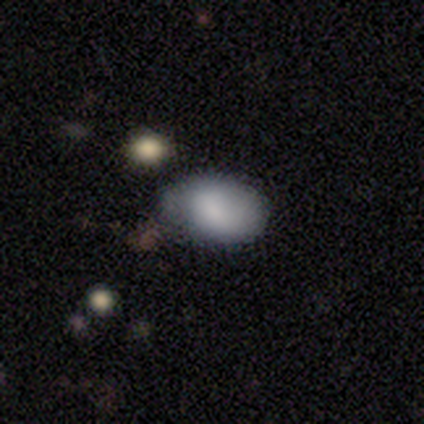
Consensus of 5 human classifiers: Overall: smooth (100%). How rounded: round (60%; in between 40%). Merging: none (100%).